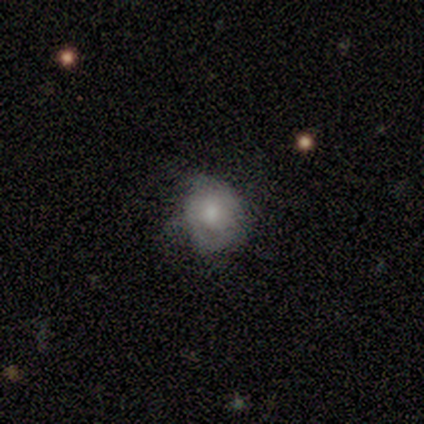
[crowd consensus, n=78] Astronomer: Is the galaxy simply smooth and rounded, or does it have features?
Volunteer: smooth — 55% (runner-up: featured or disk, 36%).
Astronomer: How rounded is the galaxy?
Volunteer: round — 67%.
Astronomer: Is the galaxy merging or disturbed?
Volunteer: none — 25% (runner-up: minor disturbance, 15%).